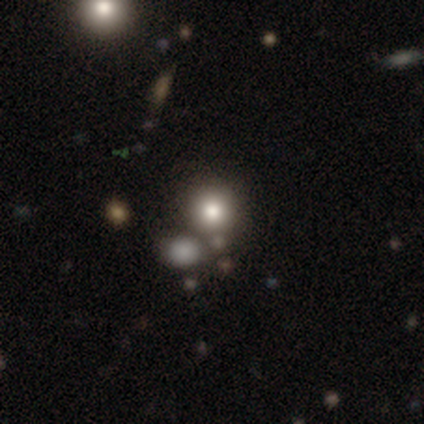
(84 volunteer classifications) smooth 63%, star or artifact 20%, featured or disk 17%. Down the decision tree: how rounded — round (91%); merging — none (69%).